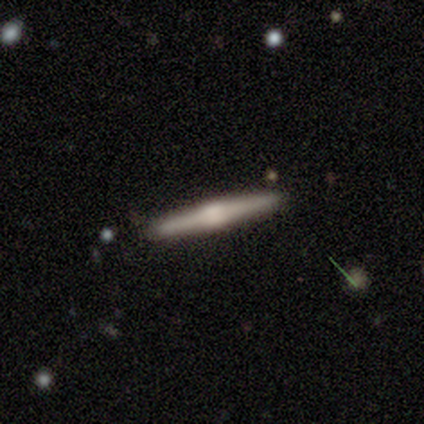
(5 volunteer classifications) Overall: featured or disk (80%). Edge-on disk: yes (100%). Edge-on bulge: rounded (100%). Merging: none (80%).